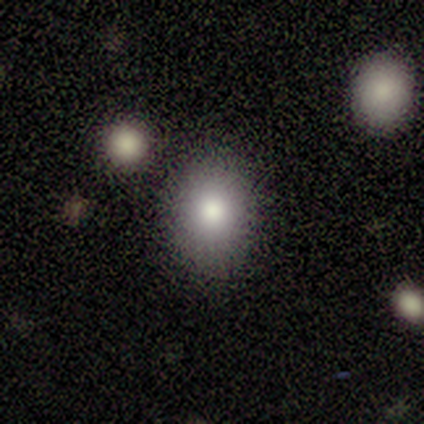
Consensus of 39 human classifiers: Overall: smooth (79%). How rounded: round (61%; in between 35%). Merging: none (85%).